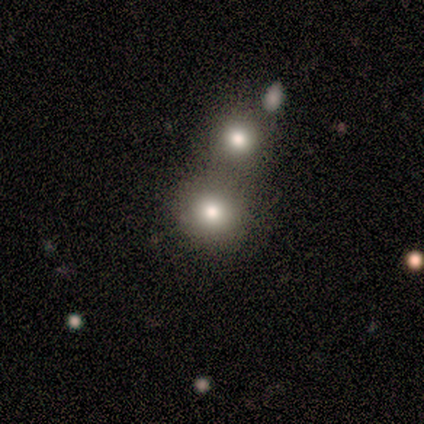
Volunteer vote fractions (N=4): smooth_or_featured: smooth (p=1.00)
how_rounded: round (p=0.75) [alt: in between p=0.25]
merging: none (p=1.00)